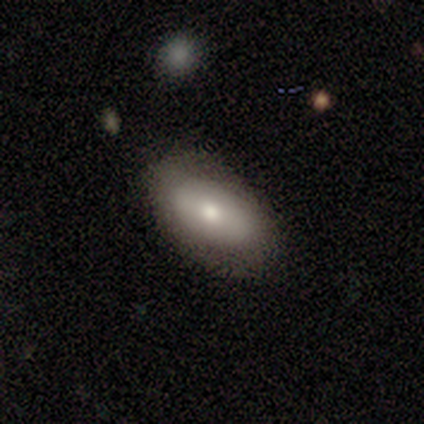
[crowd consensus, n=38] Morphology: type=smooth (74%); roundness=in between (86%); merging=none (69%).